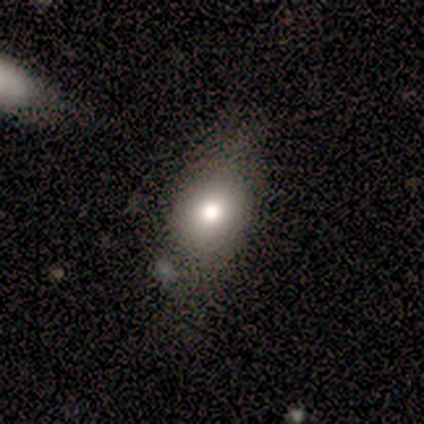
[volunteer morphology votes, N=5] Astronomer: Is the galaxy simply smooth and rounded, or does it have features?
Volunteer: smooth — 60% (runner-up: featured or disk, 40%).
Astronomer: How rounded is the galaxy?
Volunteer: in between — 100%.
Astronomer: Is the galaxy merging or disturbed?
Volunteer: minor disturbance — 80%.